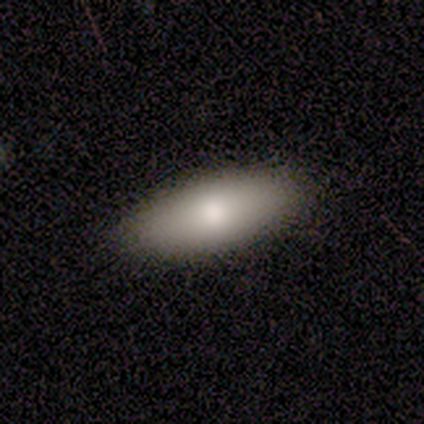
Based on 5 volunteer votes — smooth 100%, featured or disk 0%, star or artifact 0%. Down the decision tree: how rounded — in between (100%); merging — none (100%).